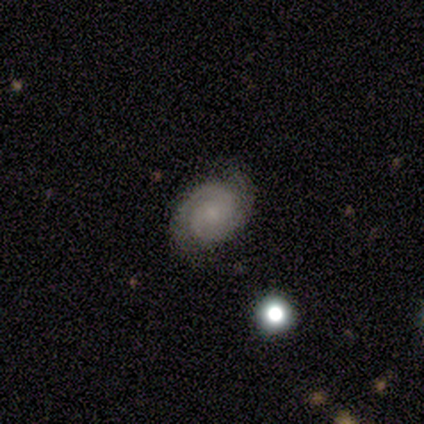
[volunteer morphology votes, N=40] Smooth or featured? 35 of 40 (88%) said featured or disk. Edge-on disk? 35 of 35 (100%) said no. Bar? 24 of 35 (69%) said no. Spiral arms? 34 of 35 (97%) said yes. Spiral winding? 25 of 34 (74%) said tight. Spiral arm count? 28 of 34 (82%) said 2. Bulge size? 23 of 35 (66%) said small. Merging? 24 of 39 (62%) said none.